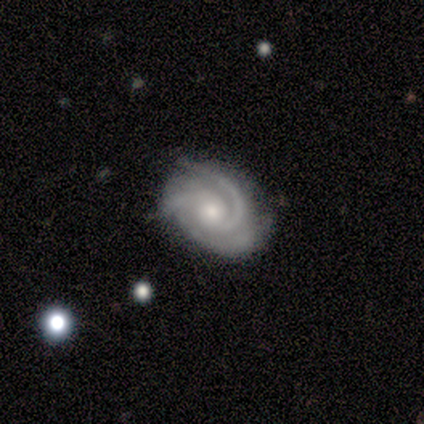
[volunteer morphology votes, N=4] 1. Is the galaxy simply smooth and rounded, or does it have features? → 75% featured or disk, 25% star or artifact, 0% smooth.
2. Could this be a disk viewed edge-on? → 67% yes, 33% no.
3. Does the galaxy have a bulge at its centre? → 100% rounded, 0% boxy, 0% none.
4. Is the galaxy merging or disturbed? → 67% none, 33% minor disturbance, 0% major disturbance, 0% merger.